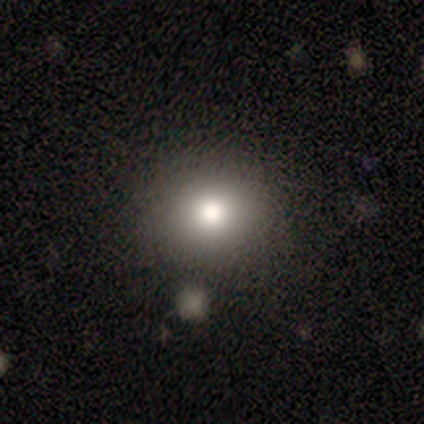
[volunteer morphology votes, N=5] smooth_or_featured: smooth (p=0.80) [alt: star or artifact p=0.20]
how_rounded: round (p=0.75) [alt: in between p=0.25]
merging: none (p=0.75) [alt: major disturbance p=0.25]